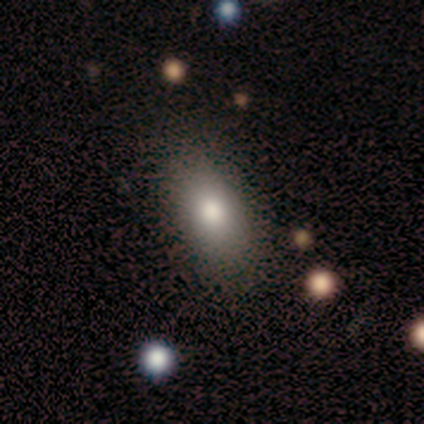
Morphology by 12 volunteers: Q: Smooth or featured?
A: smooth (75%); runner-up: star or artifact (17%)
Q: How rounded?
A: in between (89%); runner-up: cigar-shaped (11%)
Q: Merging?
A: none (90%); runner-up: minor disturbance (10%)